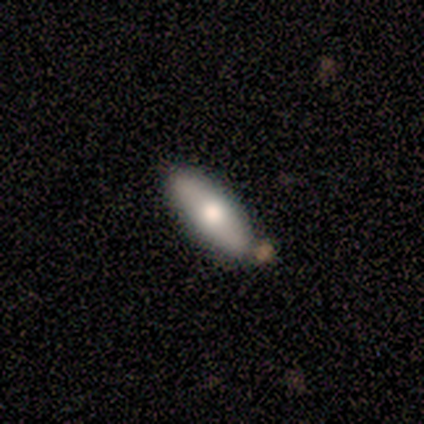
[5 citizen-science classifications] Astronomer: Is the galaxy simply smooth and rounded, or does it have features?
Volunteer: featured or disk — 60% (runner-up: smooth, 40%).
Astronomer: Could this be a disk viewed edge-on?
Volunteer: yes — 67%.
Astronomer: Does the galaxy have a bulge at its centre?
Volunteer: rounded — 100%.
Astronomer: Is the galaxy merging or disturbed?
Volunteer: none — 100%.